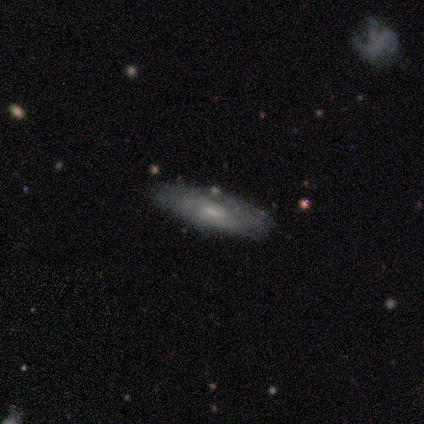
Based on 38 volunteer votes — A featured or disk galaxy (55%) with no bar (50%), tight (64%) spiral arms (79%) and a small central bulge (64%).

Vote fractions:
- Smooth or featured? featured or disk: 55% / smooth: 39% / star or artifact: 5%
- Edge-on disk? no: 67% / yes: 33%
- Bar? no: 50% / weak: 43% / strong: 7%
- Spiral arms? yes: 79% / no: 21%
- Spiral winding? tight: 64% / medium: 36% / loose: 0%
- Spiral arm count? can't tell: 91% / 2: 9% / 1: 0% / 3: 0% / 4: 0% / more than 4: 0%
- Bulge size? small: 64% / moderate: 21% / large: 7% / none: 7% / dominant: 0%
- Merging? none: 72% / minor disturbance: 17% / major disturbance: 6% / merger: 6%